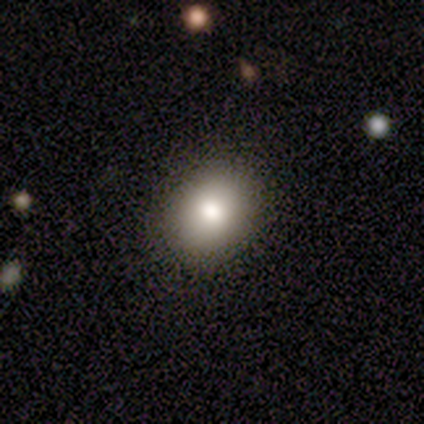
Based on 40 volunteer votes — Volunteers were most divided on "how rounded" (2-way tie): round: 50%, in between: 50%, cigar-shaped: 0%. More confident: merging — none (92%); smooth or featured — smooth (90%).